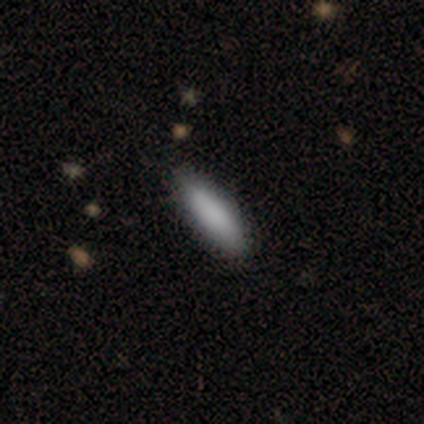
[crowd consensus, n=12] This is clearly a smooth galaxy (100%). How rounded: likely in between (67%). Merging: clearly none (83%).